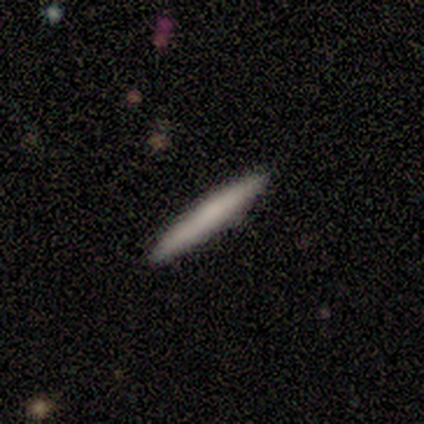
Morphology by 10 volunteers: This is likely a smooth galaxy (60%). How rounded: clearly cigar-shaped (100%). Merging: clearly none (90%).